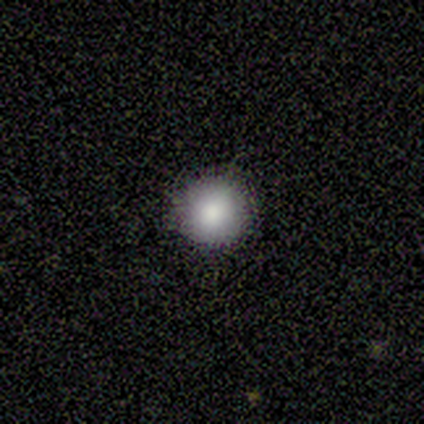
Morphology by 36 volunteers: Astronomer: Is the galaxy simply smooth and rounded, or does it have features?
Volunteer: smooth — 92%.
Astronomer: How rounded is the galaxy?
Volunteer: round — 97%.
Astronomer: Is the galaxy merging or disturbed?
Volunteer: none — 91%.